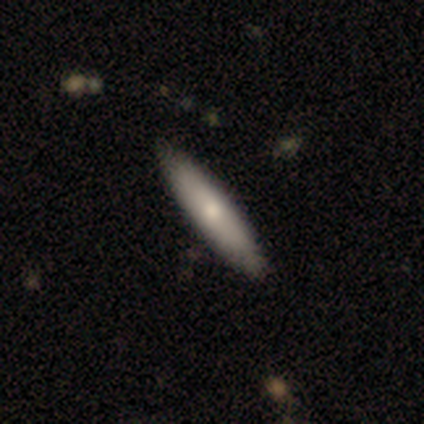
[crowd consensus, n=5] Smooth or featured: smooth — 60% (featured or disk — 40%)
How rounded: cigar-shaped — 100%
Merging: none — 80% (minor disturbance — 20%)